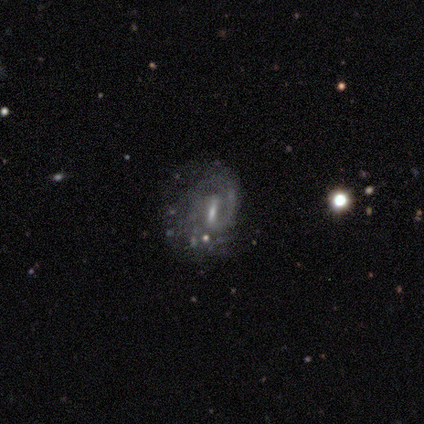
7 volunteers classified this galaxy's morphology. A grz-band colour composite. It shows a smooth galaxy with no disk features (43%) that is in between round and cigar-shaped (67%). Merging: none (60%).